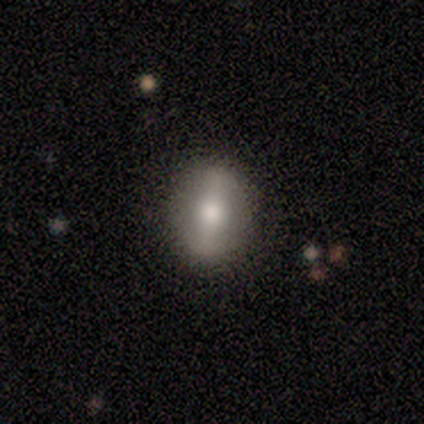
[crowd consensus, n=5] Overall: featured or disk (80%). Edge-on disk: no (75%). Bar: strong (67%; weak 33%). Spiral arms: no (100%). Bulge size: moderate (100%). Merging: none (80%).